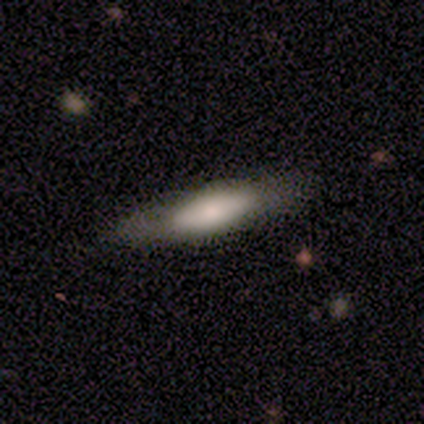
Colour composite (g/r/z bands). It shows a smooth galaxy with no disk features (80%) that is in between round and cigar-shaped (100%). Merging: none (60%).